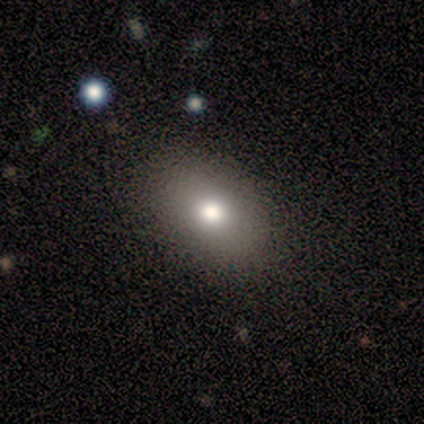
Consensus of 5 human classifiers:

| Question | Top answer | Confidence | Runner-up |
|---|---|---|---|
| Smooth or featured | smooth | 60% | featured or disk (20%) |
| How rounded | in between | 100% | — |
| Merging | none | 100% | — |